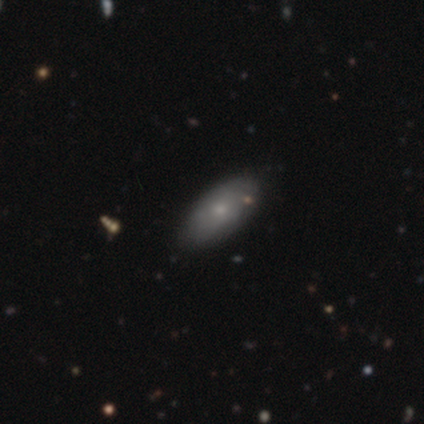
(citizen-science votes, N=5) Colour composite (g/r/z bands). It shows a smooth galaxy with no disk features (80%) that is in between round and cigar-shaped (75%). Merging: none (100%).